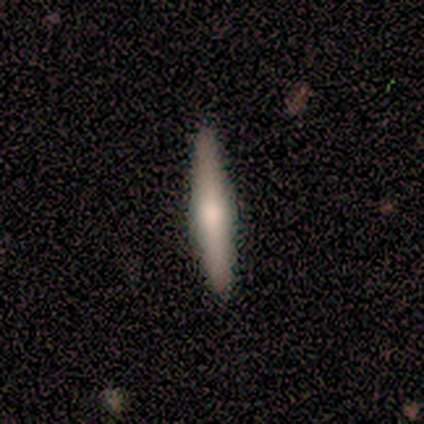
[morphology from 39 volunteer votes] smooth 64%, featured or disk 36%, star or artifact 0%. Down the decision tree: how rounded — cigar-shaped (96%); merging — none (72%).